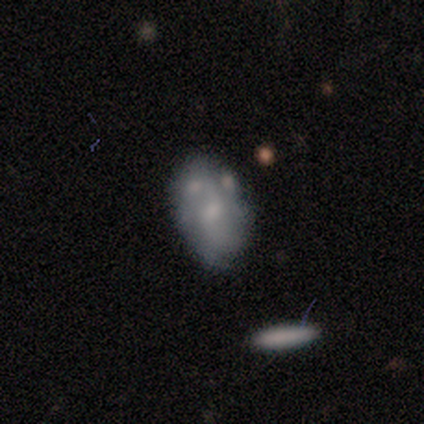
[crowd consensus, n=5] Smooth or featured? 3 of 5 (60%) said featured or disk. Edge-on disk? 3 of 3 (100%) said no. Bar? 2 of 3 (67%) said no. Spiral arms? 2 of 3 (67%) said yes. Spiral winding? 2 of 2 (100%) said tight. Spiral arm count? 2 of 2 (100%) said 2. Bulge size? 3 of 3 (100%) said small. Merging? 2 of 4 (50%) said major disturbance.